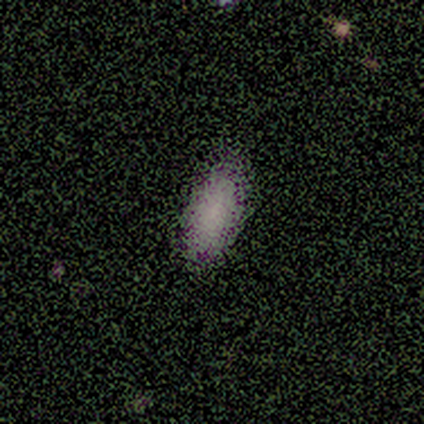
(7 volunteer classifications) This appears to be a smooth galaxy with no disk features (71%) that is in between round and cigar-shaped (80%). Merging: none (71%).